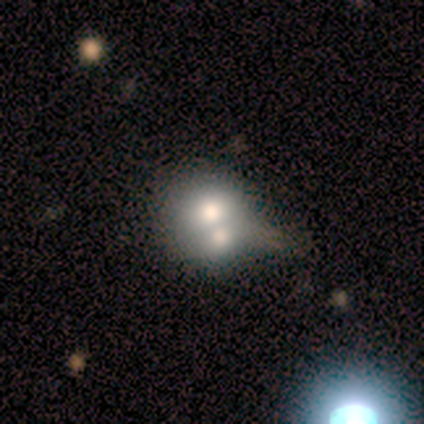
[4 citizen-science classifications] smooth-or-featured: star or artifact: 50% | smooth: 25% | featured or disk: 25%